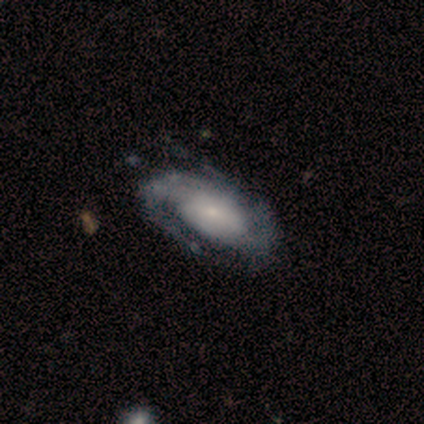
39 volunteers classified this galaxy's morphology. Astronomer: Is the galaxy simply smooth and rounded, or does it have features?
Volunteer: featured or disk — 82%.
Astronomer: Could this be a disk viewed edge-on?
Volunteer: no — 97%.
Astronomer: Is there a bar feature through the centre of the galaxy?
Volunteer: no — 65%.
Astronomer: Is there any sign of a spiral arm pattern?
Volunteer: yes — 97%.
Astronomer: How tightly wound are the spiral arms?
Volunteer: medium — 43% (runner-up: tight, 40%).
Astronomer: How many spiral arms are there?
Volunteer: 2 — 60%.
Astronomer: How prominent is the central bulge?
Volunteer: small — 58%.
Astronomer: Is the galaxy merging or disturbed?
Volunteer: none — 43%.